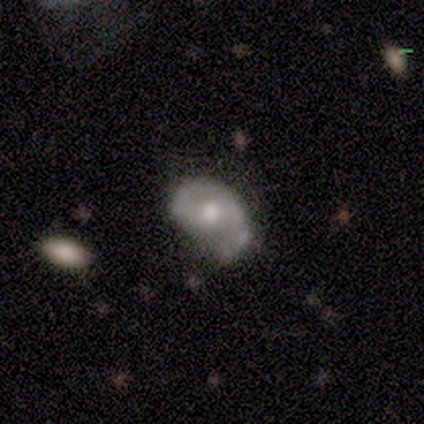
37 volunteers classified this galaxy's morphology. This appears to be a featured or disk galaxy (51%) with a weak bar (50%), 2 (59%) tight (35%, tied with medium) spiral arms (94%) and a moderate central bulge (61%). Merging: none (41%).